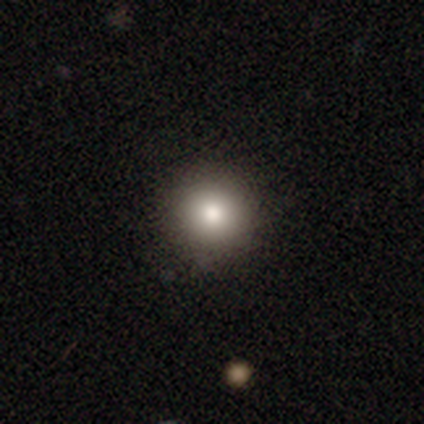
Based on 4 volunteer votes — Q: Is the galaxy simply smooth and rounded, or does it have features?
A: smooth — 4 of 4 (100%).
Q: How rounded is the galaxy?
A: round — 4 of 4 (100%).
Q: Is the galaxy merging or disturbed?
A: none — 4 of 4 (100%).